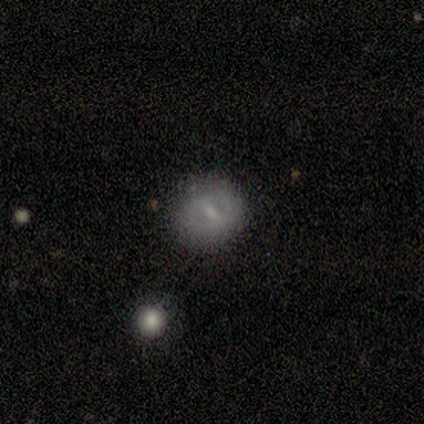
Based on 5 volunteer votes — Overall: smooth (40%, tied with featured or disk). How rounded: round (50%, tied with in between). Merging: none (75%).